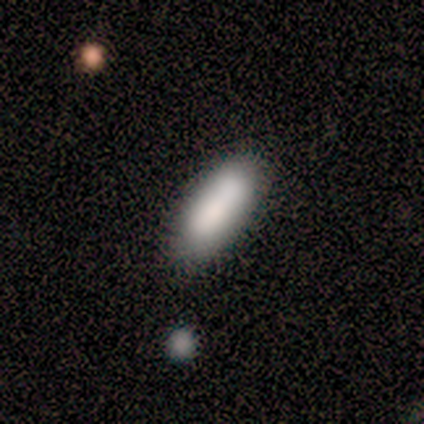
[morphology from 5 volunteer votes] Smooth or featured? smooth (100%)
How rounded? cigar-shaped (60%)
Merging? none (60%)